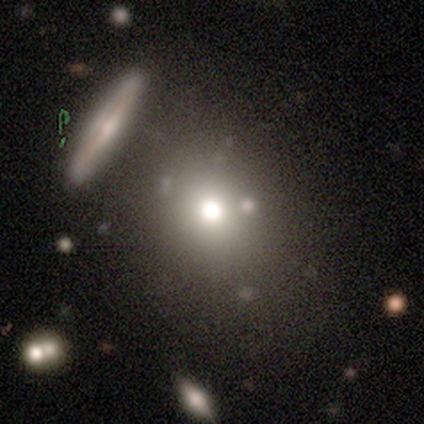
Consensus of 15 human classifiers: Smooth or featured? 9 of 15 (60%) said smooth. How rounded? 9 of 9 (100%) said round. Merging? 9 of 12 (75%) said none.